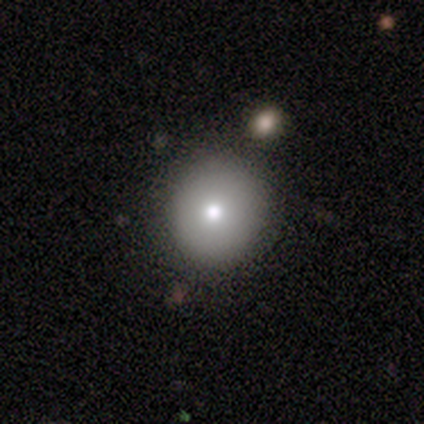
Q: Smooth or featured?
A: smooth (72%); runner-up: star or artifact (15%)
Q: How rounded?
A: round (89%); runner-up: in between (7%)
Q: Merging?
A: none (91%); runner-up: minor disturbance (6%)